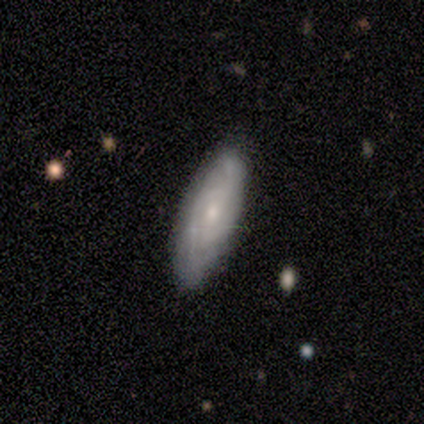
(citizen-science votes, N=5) Smooth or featured: featured or disk — 60% (smooth — 40%)
Edge-on disk: no — 100%
Bar: weak — 67% (no — 33%)
Spiral arms: yes — 100%
Spiral winding: tight — 67% (medium — 33%)
Spiral arm count: 2 — 67% (can't tell — 33%)
Bulge size: small — 67% (none — 33%)
Merging: none — 80% (minor disturbance — 20%)